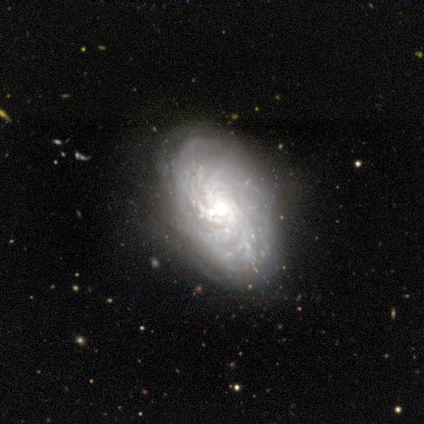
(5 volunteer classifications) This appears to be a featured or disk galaxy (100%) with no bar (60%), tight (100%) spiral arms (100%) and a moderate central bulge (80%). Merging: none (60%).